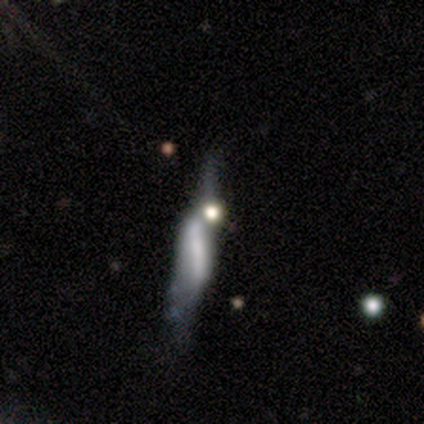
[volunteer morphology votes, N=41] This is possibly a featured or disk galaxy (56%). It is possibly not viewed edge-on (52%). Bar: possibly no (58%). Spiral arm pattern: possibly no (58%). Central bulge: possibly none (50%). Merging: marginally major disturbance (38%).